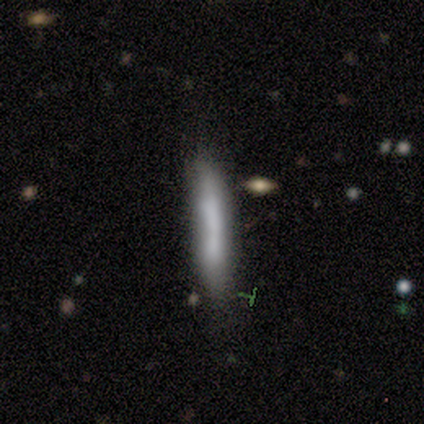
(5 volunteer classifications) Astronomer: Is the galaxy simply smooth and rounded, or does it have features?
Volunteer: smooth — 60%.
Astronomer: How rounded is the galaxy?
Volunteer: cigar-shaped — 100%.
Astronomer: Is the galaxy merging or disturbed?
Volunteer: none — 75%.